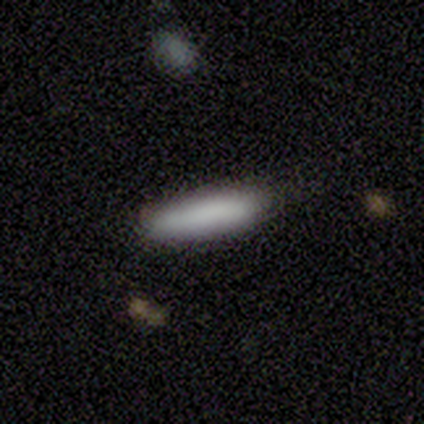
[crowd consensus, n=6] This appears to be a smooth galaxy with no disk features (83%) that is cigar-shaped (100%). Merging: none (50%, tied with minor disturbance).